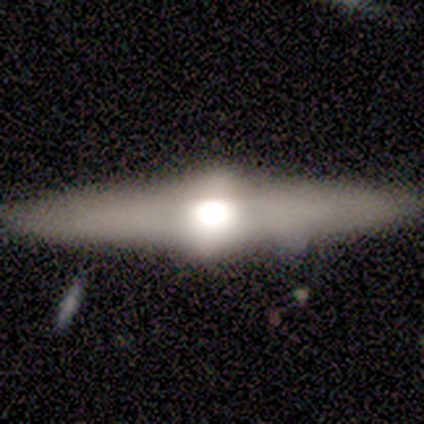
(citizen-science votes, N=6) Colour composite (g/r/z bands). It shows a featured or disk galaxy (100%) viewed edge-on (100%) with a rounded central bulge (100%). Merging: none (100%).